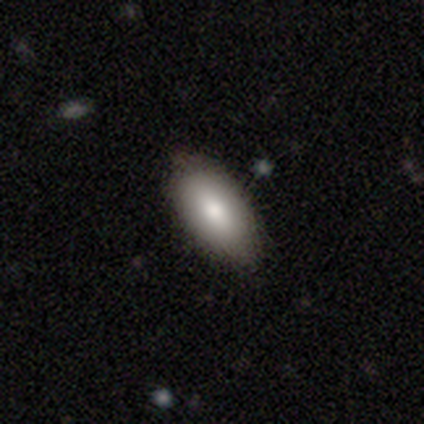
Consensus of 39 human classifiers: Smooth or featured: smooth — 85% (featured or disk — 13%)
How rounded: in between — 97% (cigar-shaped — 3%)
Merging: none — 74% (minor disturbance — 5%)